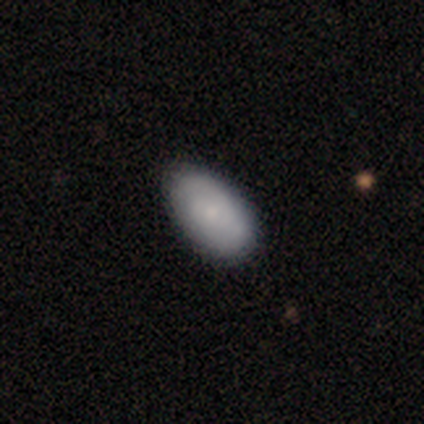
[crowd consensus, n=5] This appears to be a smooth galaxy with no disk features (60%) that is in between round and cigar-shaped (100%). Merging: none (80%).